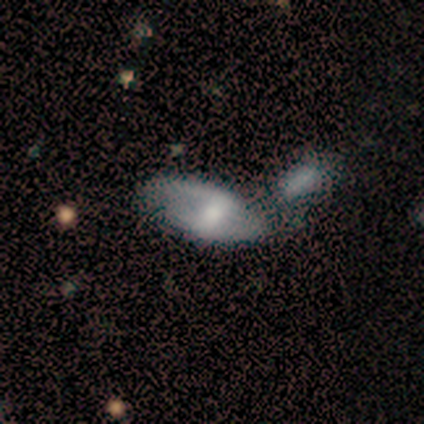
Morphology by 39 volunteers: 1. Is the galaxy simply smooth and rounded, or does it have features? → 56% featured or disk, 38% smooth, 5% star or artifact.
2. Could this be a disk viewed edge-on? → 86% no, 14% yes.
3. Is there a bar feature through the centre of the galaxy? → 37% strong (tied), 37% weak (tied), 26% no.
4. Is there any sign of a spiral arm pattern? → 63% yes, 37% no.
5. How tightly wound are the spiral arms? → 50% loose, 42% medium, 8% tight.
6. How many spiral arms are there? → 92% 2, 8% can't tell, 0% 1, 0% 3, 0% 4, 0% more than 4.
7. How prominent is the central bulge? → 42% moderate, 32% large, 16% small, 11% none, 0% dominant.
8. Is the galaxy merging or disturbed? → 46% merger, 19% none, 16% major disturbance, 8% minor disturbance.